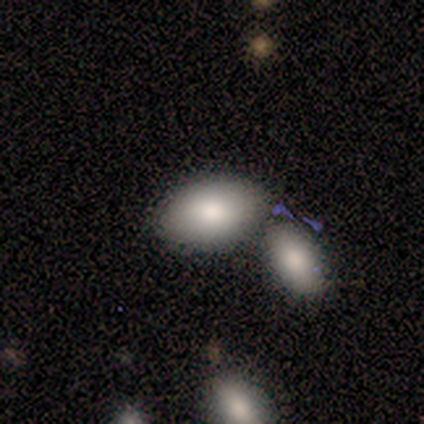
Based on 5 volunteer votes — Q: Smooth or featured?
A: smooth (80%); runner-up: featured or disk (20%)
Q: How rounded?
A: in between (100%)
Q: Merging?
A: none (40%); tied with: merger (40%)